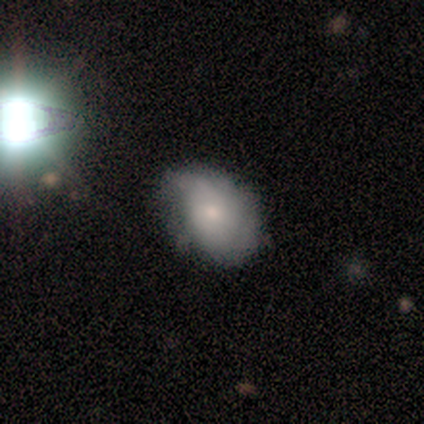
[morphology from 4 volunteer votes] A smooth galaxy with no disk features (100%) that is round (50%, tied with in between).

Vote fractions:
- Smooth or featured? smooth: 100% / featured or disk: 0% / star or artifact: 0%
- How rounded? round: 50% (tied) / in between: 50% (tied) / cigar-shaped: 0%
- Merging? none: 75% / major disturbance: 25% / minor disturbance: 0% / merger: 0%